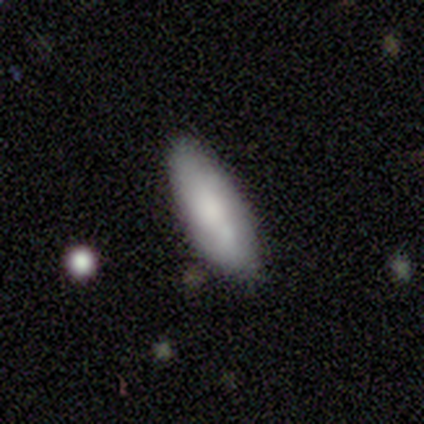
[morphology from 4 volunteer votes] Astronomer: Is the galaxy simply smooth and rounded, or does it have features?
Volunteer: smooth — 75%.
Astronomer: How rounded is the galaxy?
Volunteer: in between — 100%.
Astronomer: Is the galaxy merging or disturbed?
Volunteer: none — 75%.